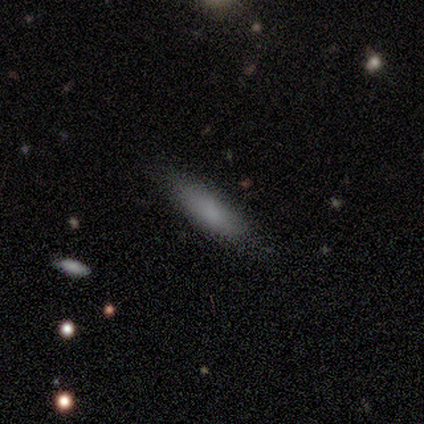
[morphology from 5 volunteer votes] smooth 80%, featured or disk 20%, star or artifact 0%. Down the decision tree: how rounded — cigar-shaped (100%); merging — none (100%).